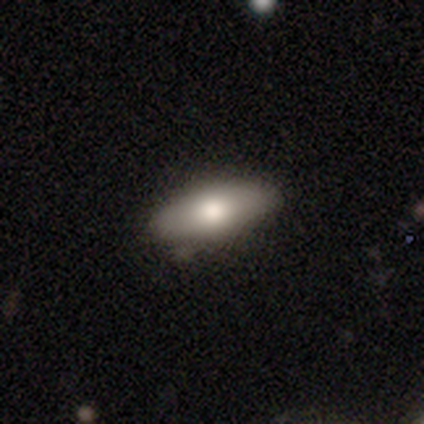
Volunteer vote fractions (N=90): Smooth or featured? 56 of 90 (62%) said smooth. How rounded? 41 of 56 (73%) said in between. Merging? 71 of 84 (85%) said none.